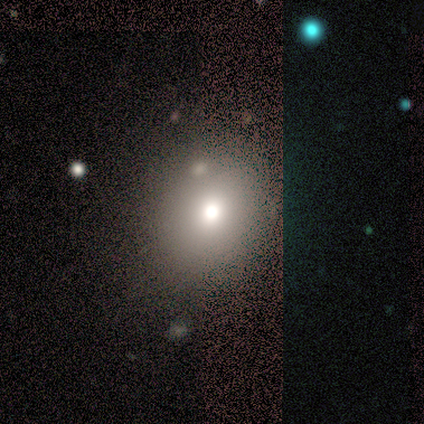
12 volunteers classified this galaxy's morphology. This is clearly a smooth galaxy (100%). How rounded: likely round (75%). Merging: clearly none (83%).